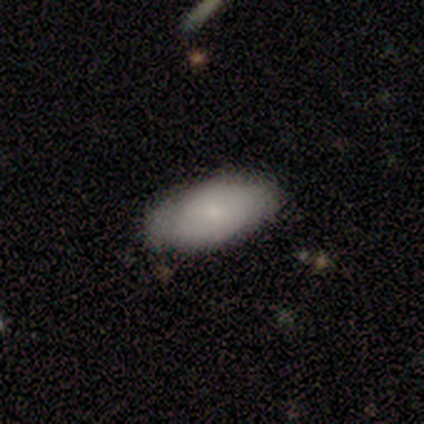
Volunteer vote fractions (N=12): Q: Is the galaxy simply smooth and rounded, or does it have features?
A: smooth — 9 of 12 (75%).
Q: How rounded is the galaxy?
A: in between — 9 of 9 (100%).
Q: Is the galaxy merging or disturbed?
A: none — 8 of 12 (67%).